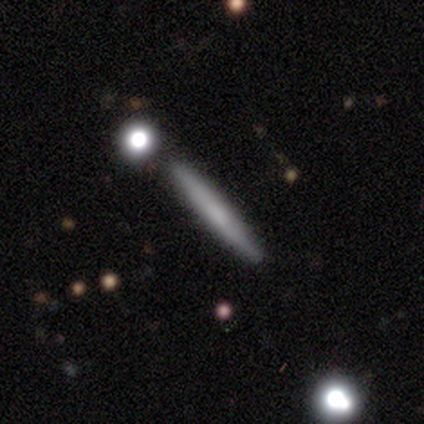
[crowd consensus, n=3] smooth 67%, featured or disk 33%, star or artifact 0%. Down the decision tree: how rounded — cigar-shaped (100%); merging — none (67%).